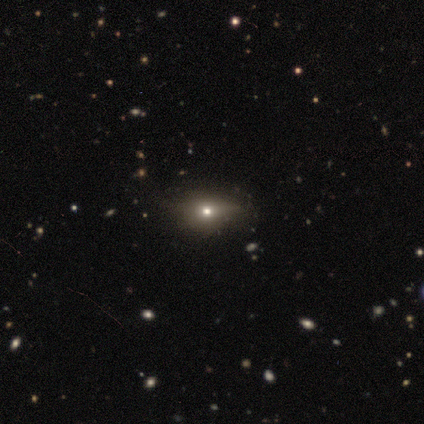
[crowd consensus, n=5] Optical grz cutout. It shows a smooth galaxy with no disk features (80%) that is round (50%, tied with in between). Merging: minor disturbance (60%).